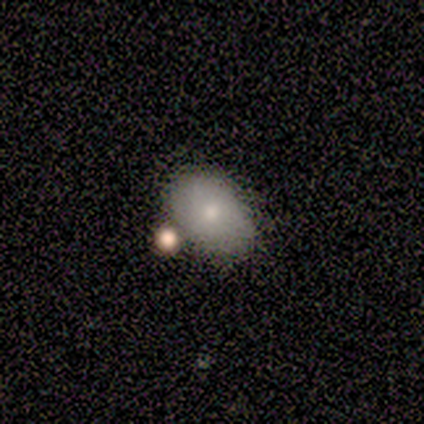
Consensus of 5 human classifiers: Q: Smooth or featured?
A: smooth (40%); tied with: featured or disk (40%)
Q: How rounded?
A: in between (100%)
Q: Merging?
A: minor disturbance (50%); runner-up: none (25%)